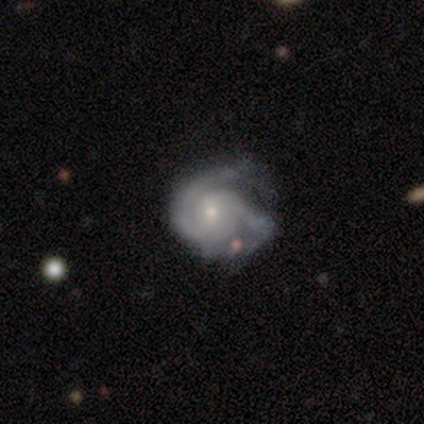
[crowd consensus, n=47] smooth-or-featured: featured or disk: 81% | smooth: 11% | star or artifact: 9%
  disk-edge-on: no: 97% | yes: 3%
    bar: no: 59% | weak: 38% | strong: 3%
    has-spiral-arms: yes: 92% | no: 8%
      spiral-winding: tight: 74% | medium: 24% | loose: 3%
      spiral-arm-count: 2: 76% | can't tell: 12% | 3: 9% | 1: 3% | 4: 0% | more than 4: 0%
    bulge-size: small: 62% | moderate: 35% | none: 3% | dominant: 0% | large: 0%
  merging: none: 58% | minor disturbance: 30% | major disturbance: 12% | merger: 0%